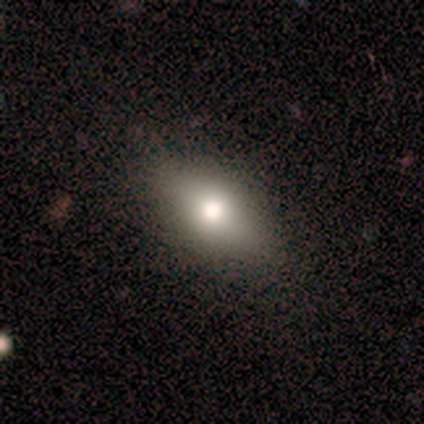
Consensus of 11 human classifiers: smooth-or-featured: smooth: 82% | featured or disk: 9% | star or artifact: 9%
  how-rounded: in between: 89% | cigar-shaped: 11% | round: 0%
  merging: none: 100% | minor disturbance: 0% | major disturbance: 0% | merger: 0%